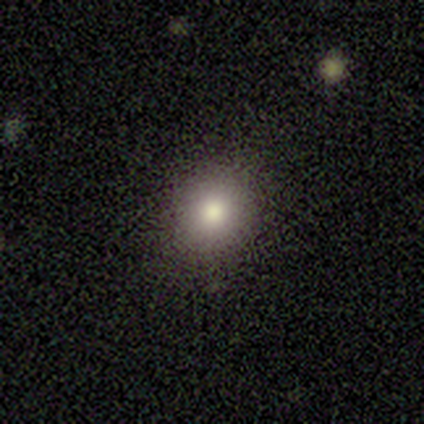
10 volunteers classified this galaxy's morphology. Q: Smooth or featured?
A: smooth (90%); runner-up: featured or disk (10%)
Q: How rounded?
A: round (89%); runner-up: in between (11%)
Q: Merging?
A: none (80%); runner-up: minor disturbance (20%)